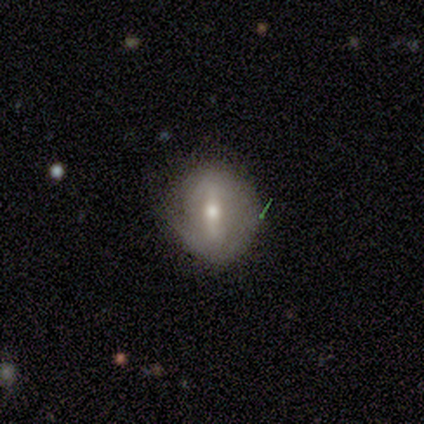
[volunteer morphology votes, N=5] smooth-or-featured: featured or disk: 60% | smooth: 40% | star or artifact: 0%
  disk-edge-on: no: 67% | yes: 33%
    bar: strong: 100% | weak: 0% | no: 0%
    has-spiral-arms: yes: 50% (tied) | no: 50% (tied)
      spiral-winding: tight: 100% | medium: 0% | loose: 0%
      spiral-arm-count: 2: 100% | 1: 0% | 3: 0% | 4: 0% | more than 4: 0% | can't tell: 0%
    bulge-size: moderate: 100% | dominant: 0% | large: 0% | small: 0% | none: 0%
  merging: none: 60% | minor disturbance: 40% | major disturbance: 0% | merger: 0%